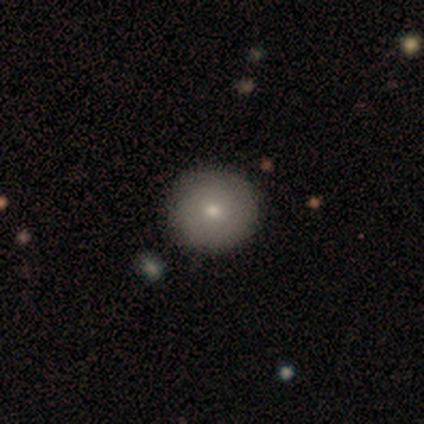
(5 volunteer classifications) smooth 80%, featured or disk 20%, star or artifact 0%. Down the decision tree: how rounded — round (100%); merging — none (100%).